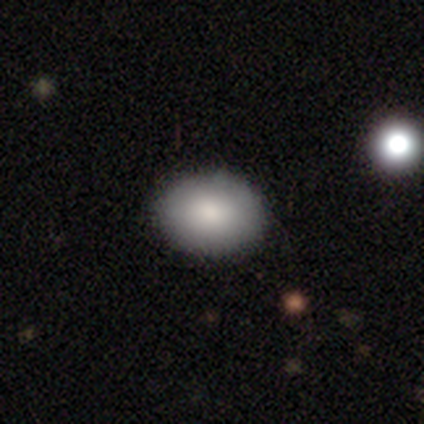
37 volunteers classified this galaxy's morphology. Q: Smooth or featured?
A: smooth (95%); runner-up: featured or disk (5%)
Q: How rounded?
A: in between (74%); runner-up: round (26%)
Q: Merging?
A: none (70%); runner-up: minor disturbance (5%)